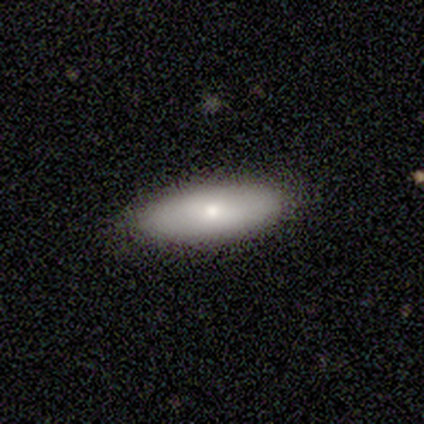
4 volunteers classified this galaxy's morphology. Overall: smooth (100%). How rounded: in between (75%). Merging: none (100%).